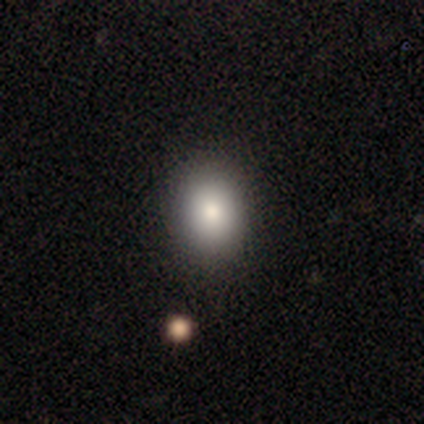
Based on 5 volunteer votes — A smooth galaxy with no disk features (100%) that is in between round and cigar-shaped (60%).

Vote fractions:
- Smooth or featured? smooth: 100% / featured or disk: 0% / star or artifact: 0%
- How rounded? in between: 60% / round: 40% / cigar-shaped: 0%
- Merging? none: 80% / minor disturbance: 20% / major disturbance: 0% / merger: 0%